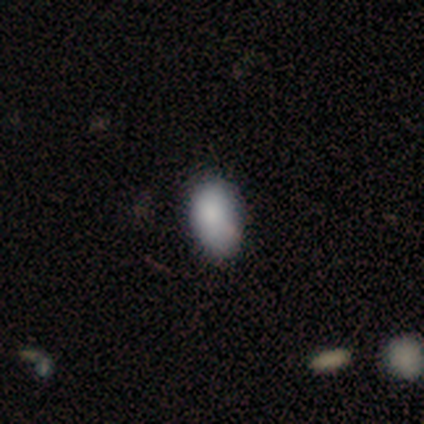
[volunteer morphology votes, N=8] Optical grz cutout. It shows a smooth galaxy with no disk features (100%) that is in between round and cigar-shaped (88%). Merging: none (50%, tied with minor disturbance).